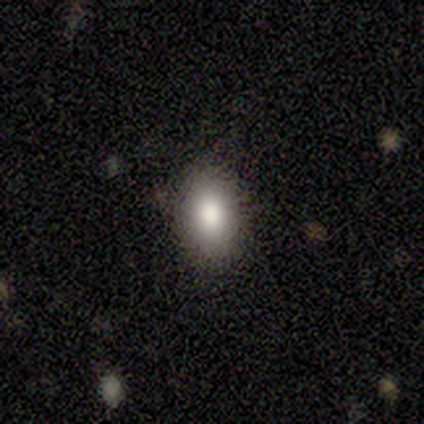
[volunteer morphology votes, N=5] smooth-or-featured: smooth: 100% | featured or disk: 0% | star or artifact: 0%
  how-rounded: in between: 100% | round: 0% | cigar-shaped: 0%
  merging: none: 100% | minor disturbance: 0% | major disturbance: 0% | merger: 0%